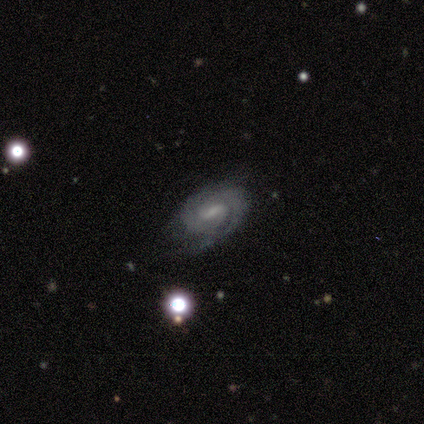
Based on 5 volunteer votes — Smooth or featured? featured or disk (80%)
Edge-on disk? no (100%)
Bar? no (50%)
Spiral arms? yes (100%)
Spiral winding? tight (50%, tied with medium)
Spiral arm count? can't tell (50%)
Bulge size? moderate (50%)
Merging? minor disturbance (60%)